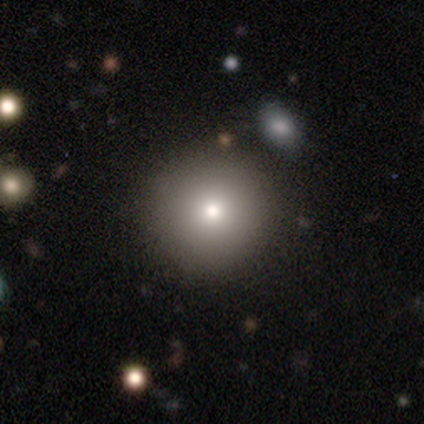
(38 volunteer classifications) This is likely a smooth galaxy (76%). How rounded: clearly round (100%). Merging: clearly none (82%).